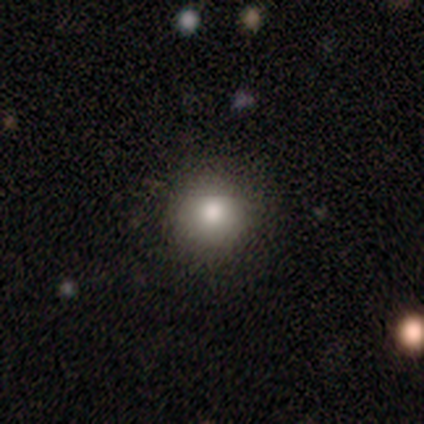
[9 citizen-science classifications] Smooth or featured? 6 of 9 (67%) said smooth. How rounded? 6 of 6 (100%) said round. Merging? 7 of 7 (100%) said none.